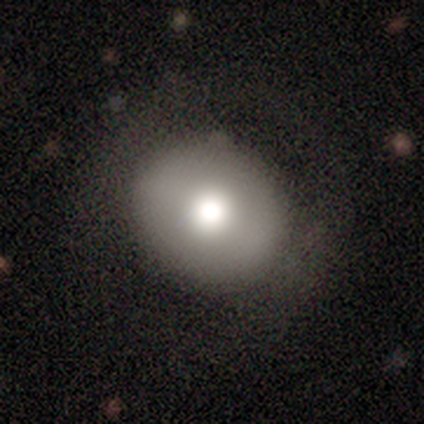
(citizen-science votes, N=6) Smooth or featured? smooth (83%)
How rounded? round (80%)
Merging? minor disturbance (67%)